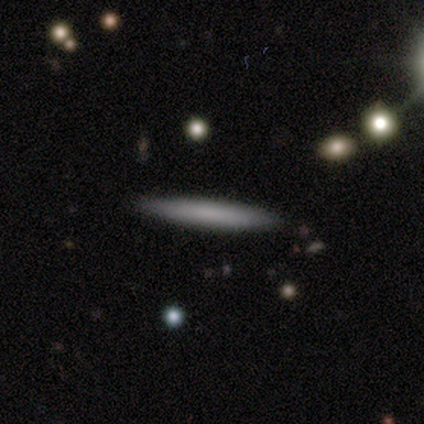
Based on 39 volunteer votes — A smooth galaxy with no disk features (64%) that is cigar-shaped (96%). Merging: none (89%).